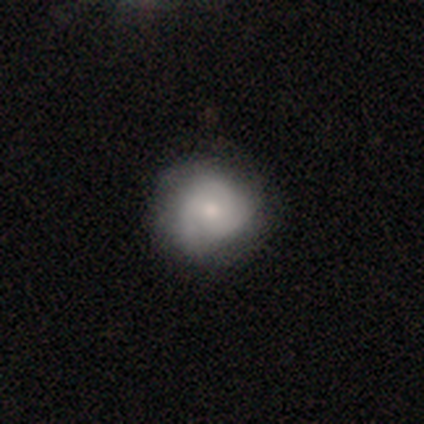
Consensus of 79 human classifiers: Smooth or featured? smooth (51%)
How rounded? round (90%)
Merging? none (47%)